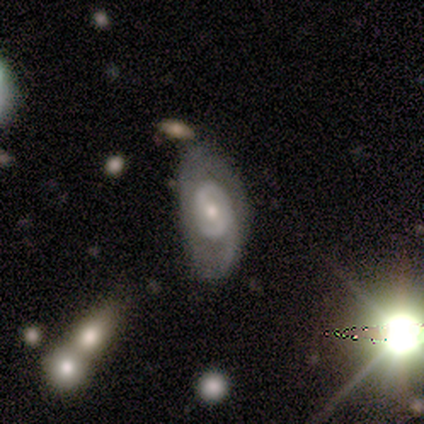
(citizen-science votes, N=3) Smooth or featured? 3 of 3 (100%) said featured or disk. Edge-on disk? 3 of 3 (100%) said no. Bar? 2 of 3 (67%) said weak. Spiral arms? 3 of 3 (100%) said yes. Spiral winding? 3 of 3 (100%) said loose. Spiral arm count? 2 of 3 (67%) said 2. Bulge size? 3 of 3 (100%) said moderate. Merging? 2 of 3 (67%) said none.